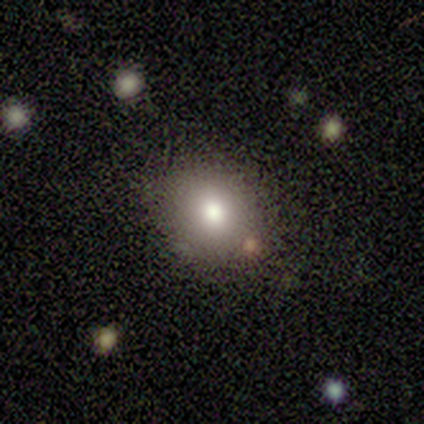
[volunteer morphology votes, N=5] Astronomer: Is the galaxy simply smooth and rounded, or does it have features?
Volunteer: smooth — 60% (runner-up: featured or disk, 40%).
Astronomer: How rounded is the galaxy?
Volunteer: round — 67%.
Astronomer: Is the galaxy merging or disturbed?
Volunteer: none — 100%.